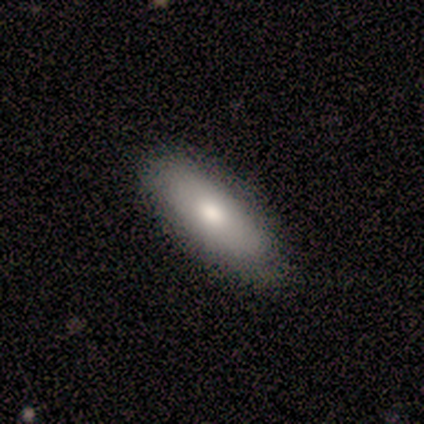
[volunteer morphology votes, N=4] Smooth or featured?
  - smooth: 75% *
  - featured or disk: 25%
  - star or artifact: 0%
How rounded?
  - in between: 100% *
  - round: 0%
  - cigar-shaped: 0%
Merging?
  - none: 75% *
  - minor disturbance: 25%
  - major disturbance: 0%
  - merger: 0%